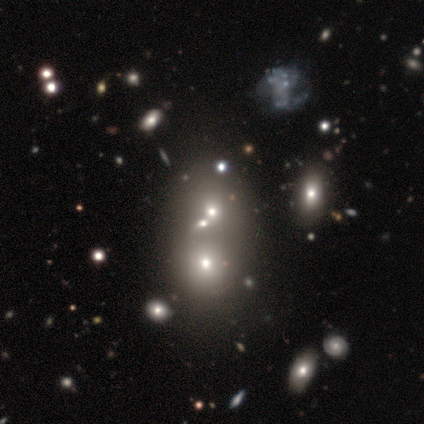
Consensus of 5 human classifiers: smooth-or-featured: smooth: 40% (tied) | featured or disk: 40% (tied) | star or artifact: 20%
  how-rounded: round: 100% | in between: 0% | cigar-shaped: 0%
  merging: merger: 75% | none: 25% | minor disturbance: 0% | major disturbance: 0%